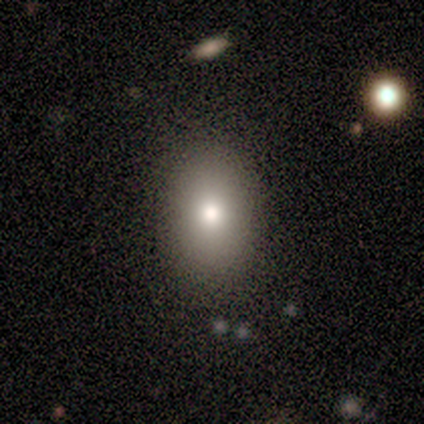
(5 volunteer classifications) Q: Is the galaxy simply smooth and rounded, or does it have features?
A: smooth — 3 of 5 (60%).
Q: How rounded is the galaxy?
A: in between — 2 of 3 (67%).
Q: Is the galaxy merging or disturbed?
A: none — 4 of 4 (100%).